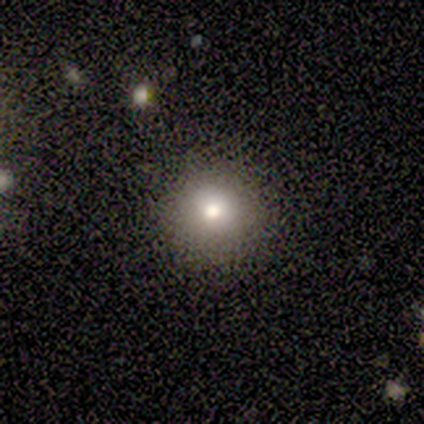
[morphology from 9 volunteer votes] This appears to be a smooth galaxy with no disk features (67%) that is round (67%). Merging: none (88%).